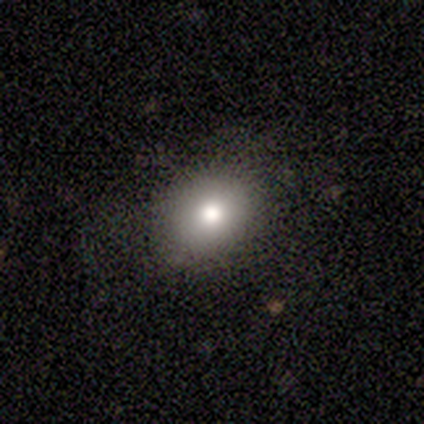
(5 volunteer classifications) smooth-or-featured: smooth: 80% | star or artifact: 20% | featured or disk: 0%
  how-rounded: round: 75% | in between: 25% | cigar-shaped: 0%
  merging: none: 100% | minor disturbance: 0% | major disturbance: 0% | merger: 0%